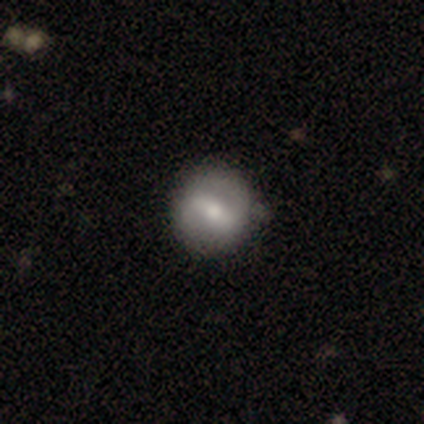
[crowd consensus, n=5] This is likely a smooth galaxy (60%). How rounded: likely in between (67%). Merging: clearly none (100%).